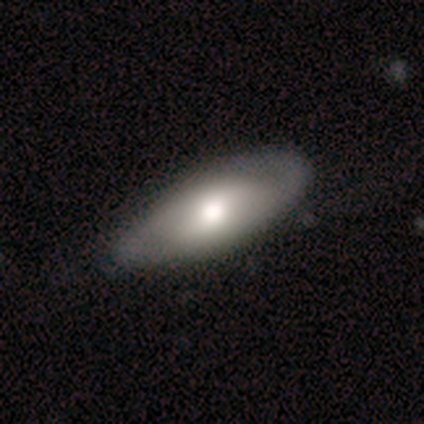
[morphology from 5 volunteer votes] Volunteers were most divided on "smooth or featured": smooth: 60%, featured or disk: 40%, star or artifact: 0%. More confident: how rounded — in between (100%); merging — none (60%).